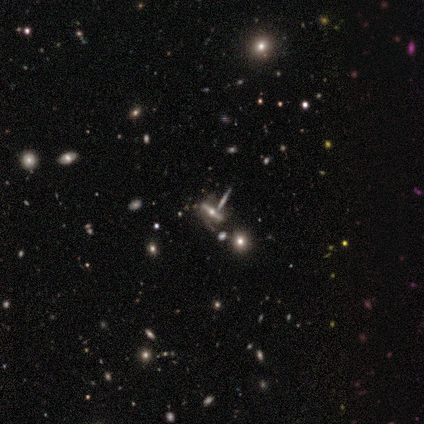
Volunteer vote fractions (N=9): Smooth or featured: featured or disk — 67% (smooth — 22%)
Edge-on disk: yes — 50% (tied with no — 50%)
Edge-on bulge: rounded — 67% (none — 33%)
Merging: none — 50% (merger — 38%)